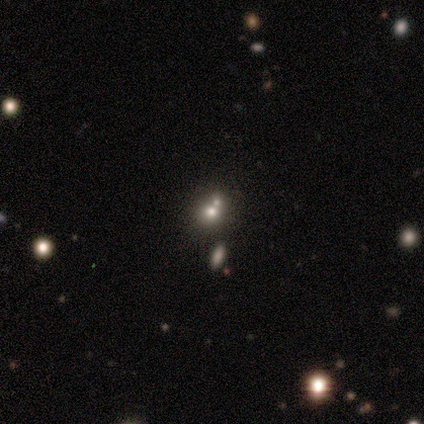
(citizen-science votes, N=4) A smooth galaxy with no disk features (75%) that is round (100%).

Vote fractions:
- Smooth or featured? smooth: 75% / star or artifact: 25% / featured or disk: 0%
- How rounded? round: 100% / in between: 0% / cigar-shaped: 0%
- Merging? none: 67% / merger: 33% / minor disturbance: 0% / major disturbance: 0%